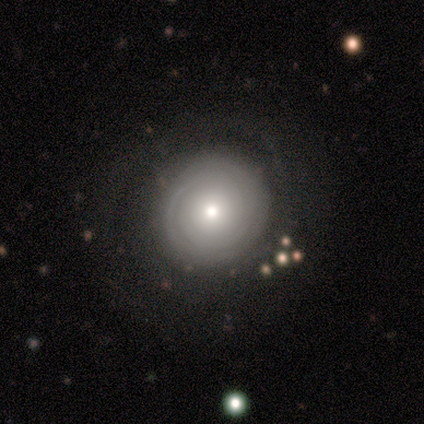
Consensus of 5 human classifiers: Smooth or featured: smooth — 40% (tied with featured or disk — 40%)
How rounded: round — 100%
Merging: none — 100%